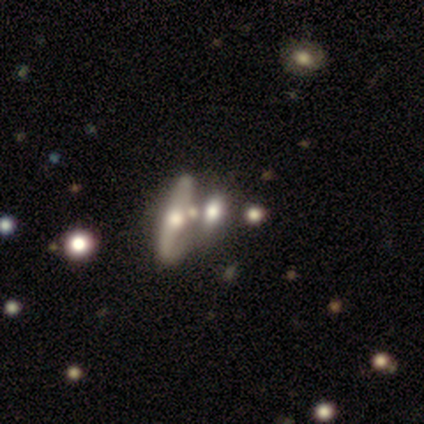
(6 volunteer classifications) Volunteers were most divided on "smooth or featured" (2-way tie): smooth: 50%, featured or disk: 50%, star or artifact: 0%. More confident: how rounded — cigar-shaped (67%); merging — none (67%).